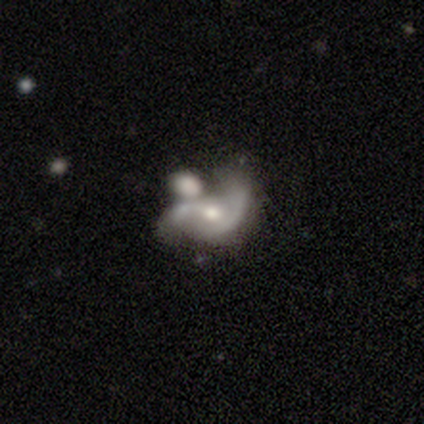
Volunteers were most divided on "bar" (2-way tie): weak: 50%, no: 50%, strong: 0%; "spiral winding" (2-way tie): tight: 50%, medium: 50%, loose: 0%; "bulge size" (2-way tie): moderate: 50%, small: 50%, dominant: 0%, large: 0%, none: 0%; "merging" (2-way tie): none: 50%, minor disturbance: 50%, major disturbance: 0%, merger: 0%. More confident: edge-on disk — no (100%); spiral arms — yes (100%); spiral arm count — 2 (100%); smooth or featured — featured or disk (67%).